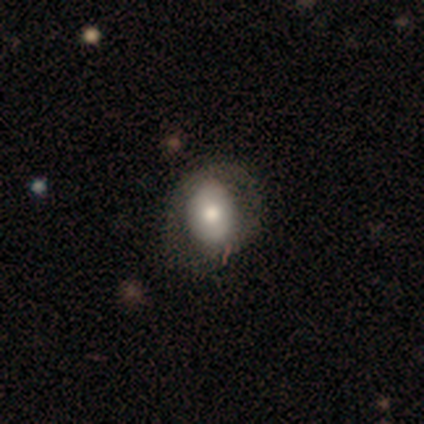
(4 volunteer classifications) Volunteers were most divided on "merging": major disturbance: 50%, none: 25%, minor disturbance: 25%, merger: 0%. More confident: smooth or featured — smooth (75%); how rounded — round (67%).